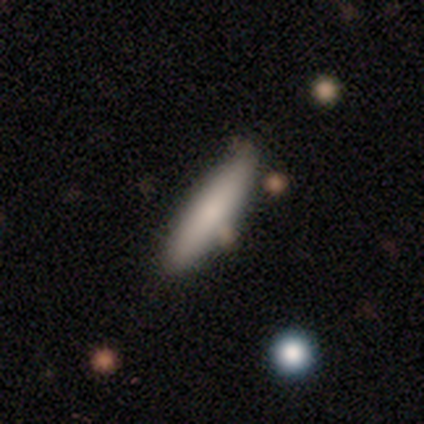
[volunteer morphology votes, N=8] Q: Smooth or featured?
A: smooth (88%); runner-up: featured or disk (12%)
Q: How rounded?
A: cigar-shaped (86%); runner-up: in between (14%)
Q: Merging?
A: none (75%); runner-up: minor disturbance (25%)